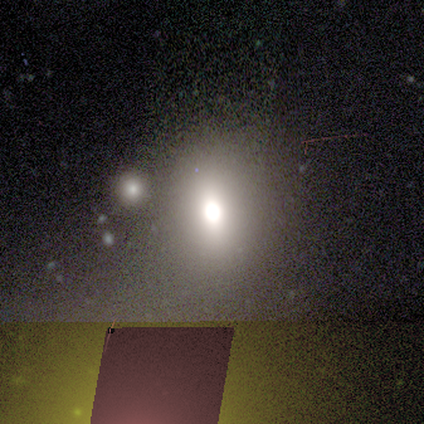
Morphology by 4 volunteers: Q: Smooth or featured?
A: featured or disk (50%); runner-up: smooth (25%)
Q: Edge-on disk?
A: yes (50%); tied with: no (50%)
Q: Edge-on bulge?
A: rounded (100%)
Q: Merging?
A: none (67%); runner-up: minor disturbance (33%)